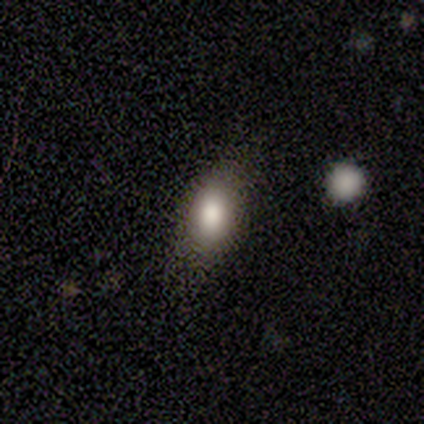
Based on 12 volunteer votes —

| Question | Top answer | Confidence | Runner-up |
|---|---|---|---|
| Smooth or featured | smooth | 83% | featured or disk (8%) |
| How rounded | in between | 70% | round (20%) |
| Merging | none | 55% | minor disturbance (36%) |